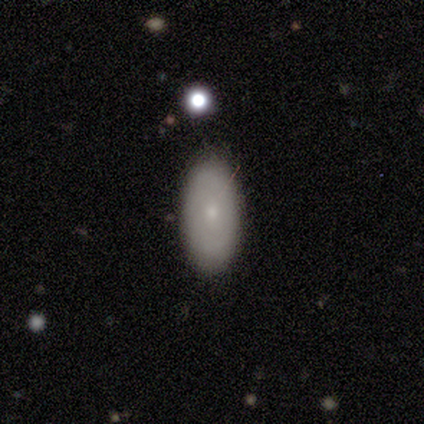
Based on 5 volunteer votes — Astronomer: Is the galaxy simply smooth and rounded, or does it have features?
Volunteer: smooth — 100%.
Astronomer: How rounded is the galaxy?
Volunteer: in between — 100%.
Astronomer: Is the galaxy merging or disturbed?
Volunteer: none — 80%.